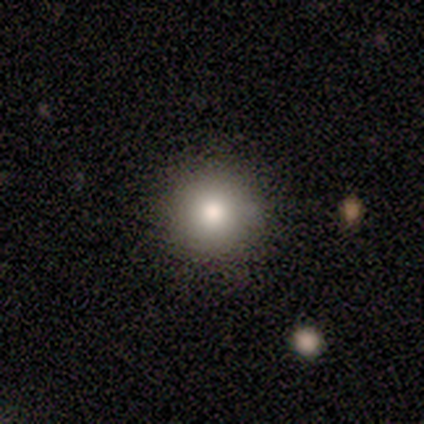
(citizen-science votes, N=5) smooth 80%, star or artifact 20%, featured or disk 0%. Down the decision tree: how rounded — round (100%); merging — none (100%).